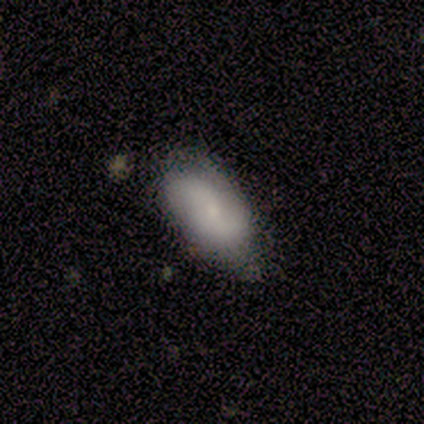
smooth 60%, featured or disk 40%, star or artifact 0%. Down the decision tree: how rounded — in between (100%); merging — minor disturbance (60%).